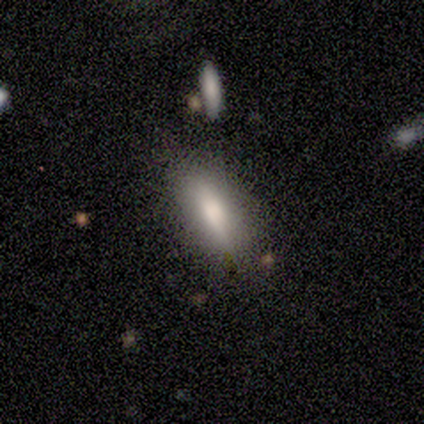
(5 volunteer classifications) A smooth galaxy with no disk features (60%) that is in between round and cigar-shaped (100%).

Vote fractions:
- Smooth or featured? smooth: 60% / featured or disk: 20% / star or artifact: 20%
- How rounded? in between: 100% / round: 0% / cigar-shaped: 0%
- Merging? none: 100% / minor disturbance: 0% / major disturbance: 0% / merger: 0%